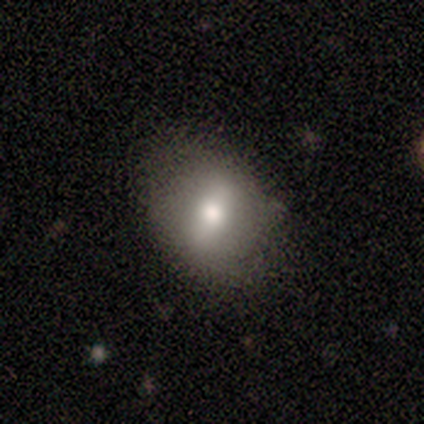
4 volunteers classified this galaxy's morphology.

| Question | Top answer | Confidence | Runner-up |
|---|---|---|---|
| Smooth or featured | smooth | 75% | featured or disk (25%) |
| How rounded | round | 100% | — |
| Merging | none | 100% | — |